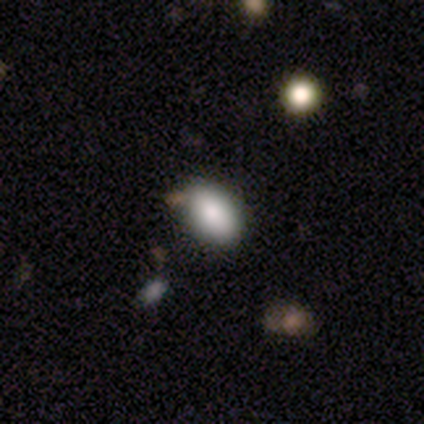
This is clearly a smooth galaxy (87%). How rounded: clearly in between (85%). Merging: likely none (69%).